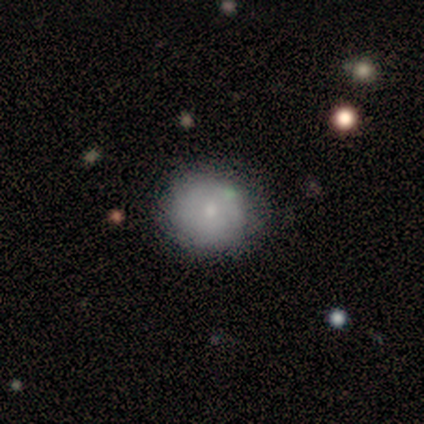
Q: Smooth or featured?
A: smooth (71%); runner-up: featured or disk (21%)
Q: How rounded?
A: round (91%); runner-up: in between (9%)
Q: Merging?
A: none (79%); runner-up: minor disturbance (13%)